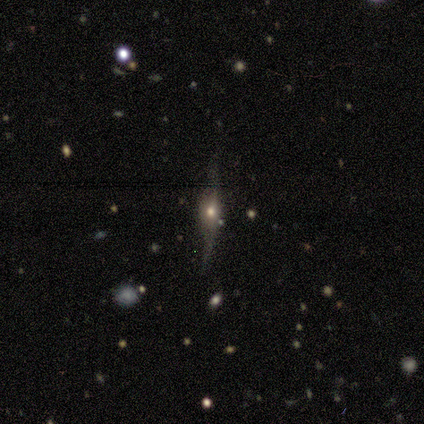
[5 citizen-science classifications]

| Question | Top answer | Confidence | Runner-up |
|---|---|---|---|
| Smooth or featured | featured or disk | 100% | — |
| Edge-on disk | yes | 100% | — |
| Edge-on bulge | rounded | 100% | — |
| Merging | none | 100% | — |